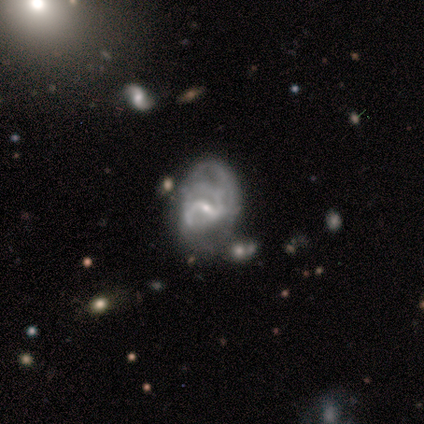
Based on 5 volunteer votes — Morphology: type=featured or disk (80%); edge-on=no (100%); bar=weak (50%); spiral arms=yes (100%); winding=medium (50%); arm count=2 (25%, tied with 3, 4 and can't tell); bulge=small (100%); merging=major disturbance (50%).